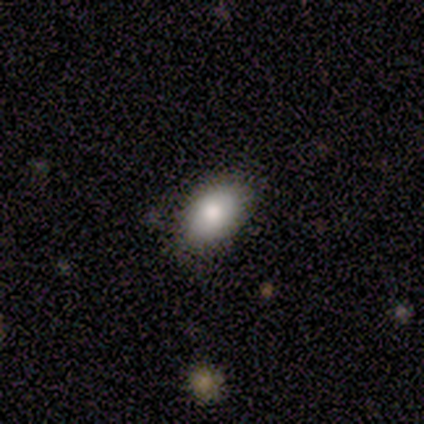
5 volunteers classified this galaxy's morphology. type=smooth (100%); roundness=round (60%); merging=none (60%).